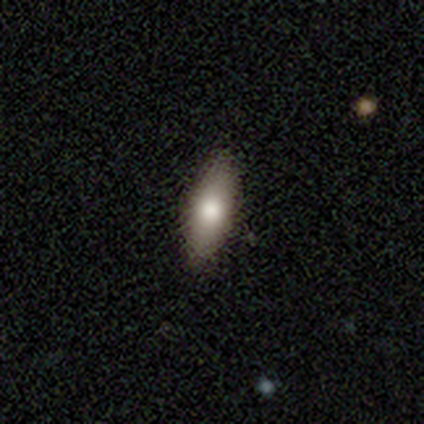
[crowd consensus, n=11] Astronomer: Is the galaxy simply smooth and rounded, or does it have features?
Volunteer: smooth — 91%.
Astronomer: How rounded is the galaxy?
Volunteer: in between — 70%.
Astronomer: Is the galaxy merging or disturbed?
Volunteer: none — 100%.